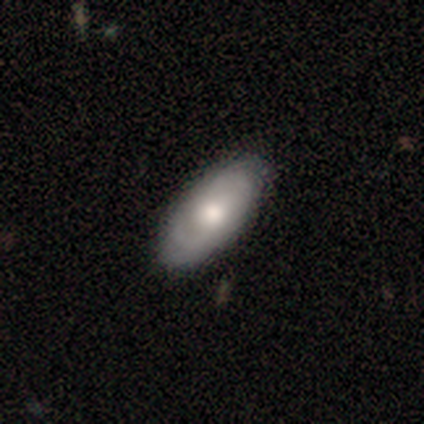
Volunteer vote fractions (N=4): Q: Smooth or featured?
A: featured or disk (75%); runner-up: smooth (25%)
Q: Edge-on disk?
A: no (67%); runner-up: yes (33%)
Q: Bar?
A: no (100%)
Q: Spiral arms?
A: yes (100%)
Q: Spiral winding?
A: tight (50%); tied with: medium (50%)
Q: Spiral arm count?
A: can't tell (100%)
Q: Bulge size?
A: moderate (100%)
Q: Merging?
A: none (100%)